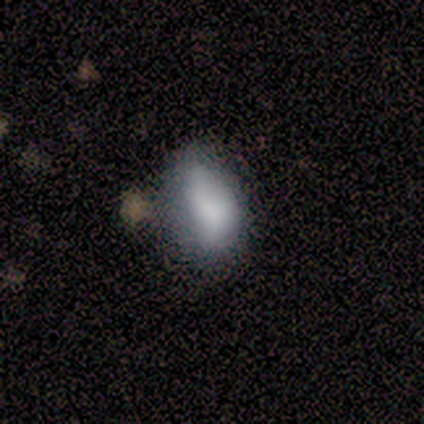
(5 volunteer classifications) A smooth galaxy with no disk features (100%) that is in between round and cigar-shaped (100%). Merging: minor disturbance (60%).